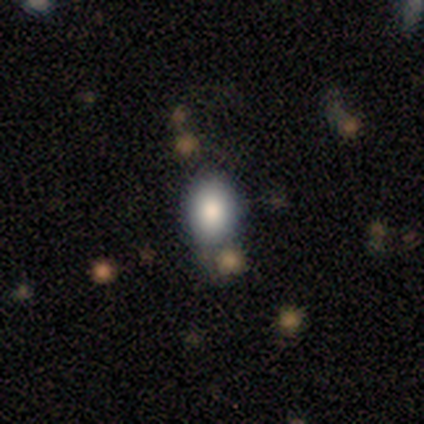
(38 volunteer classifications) Volunteers were most divided on "merging": none: 64%, minor disturbance: 19%, major disturbance: 8%, merger: 8%. More confident: smooth or featured — smooth (89%); how rounded — in between (74%).